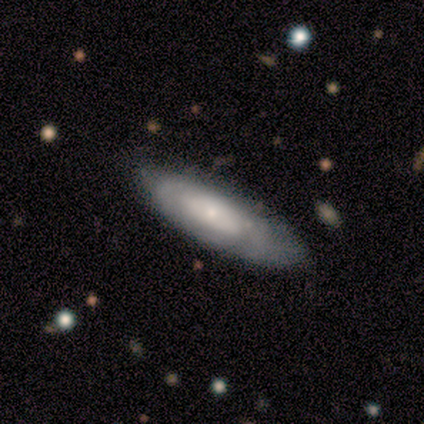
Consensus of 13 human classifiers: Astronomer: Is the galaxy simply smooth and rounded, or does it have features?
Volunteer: featured or disk — 54% (runner-up: smooth, 46%).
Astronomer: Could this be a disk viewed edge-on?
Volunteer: no — 57% (runner-up: yes, 43%).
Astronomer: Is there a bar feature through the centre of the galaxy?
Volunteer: no — 100%.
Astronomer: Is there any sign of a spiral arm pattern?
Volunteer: yes — 75%.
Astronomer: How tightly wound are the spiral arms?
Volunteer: tight — 67%.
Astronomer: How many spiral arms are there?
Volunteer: can't tell — 67%.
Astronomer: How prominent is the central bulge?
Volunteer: small — 75%.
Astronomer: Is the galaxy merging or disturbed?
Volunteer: none — 100%.